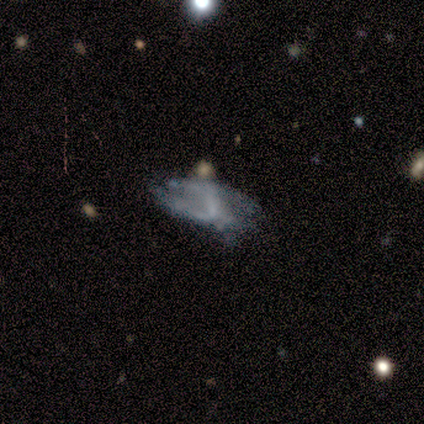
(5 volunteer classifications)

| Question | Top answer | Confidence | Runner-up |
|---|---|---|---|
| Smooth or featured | featured or disk | 80% | smooth (20%) |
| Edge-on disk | no | 100% | — |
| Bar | strong | 50% | tied: weak (50%) |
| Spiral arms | yes | 75% | no (25%) |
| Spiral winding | tight | 33% | tied: medium (33%), loose (33%) |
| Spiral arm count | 1 | 33% | tied: 2 (33%), can't tell (33%) |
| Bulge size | small | 75% | none (25%) |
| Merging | major disturbance | 60% | none (20%) |